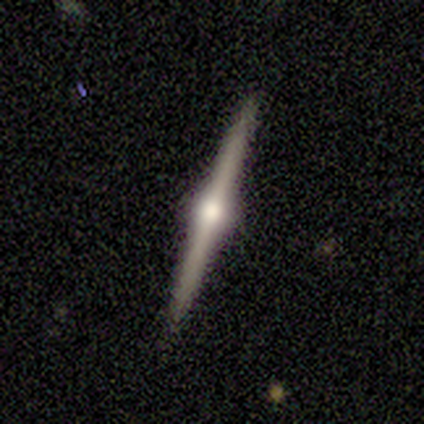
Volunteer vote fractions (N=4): Smooth or featured: featured or disk — 100%
Edge-on disk: yes — 100%
Edge-on bulge: rounded — 100%
Merging: none — 100%